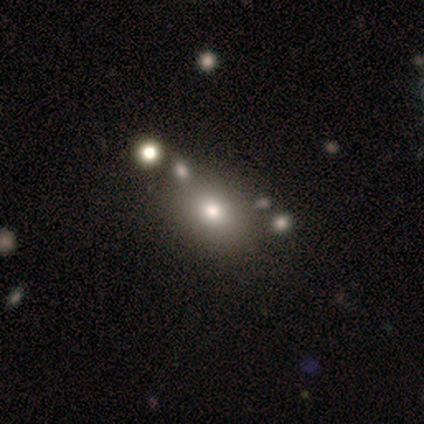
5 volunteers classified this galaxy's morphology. Smooth or featured? smooth (80%)
How rounded? in between (75%)
Merging? none (80%)